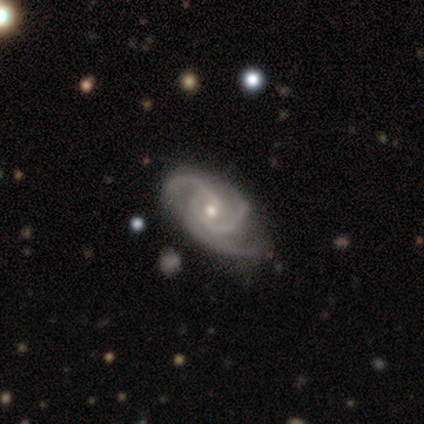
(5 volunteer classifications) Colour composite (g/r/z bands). It shows a featured or disk galaxy (100%) with no bar (60%), 3 (100%) tight (60%) spiral arms (100%) and a small central bulge (100%). Merging: none (40%, tied with minor disturbance).